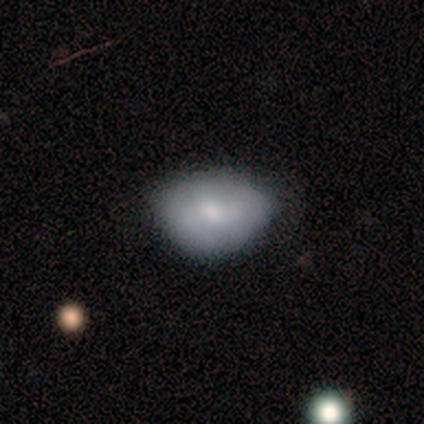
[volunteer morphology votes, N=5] Q: Smooth or featured?
A: smooth (100%)
Q: How rounded?
A: in between (100%)
Q: Merging?
A: none (40%); tied with: minor disturbance (40%)